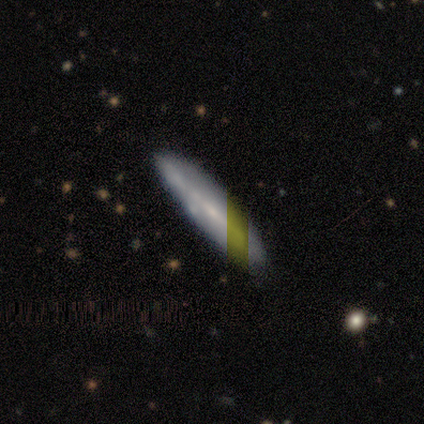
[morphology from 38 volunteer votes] This is possibly a smooth galaxy (55%). How rounded: clearly cigar-shaped (95%). Merging: clearly none (94%).